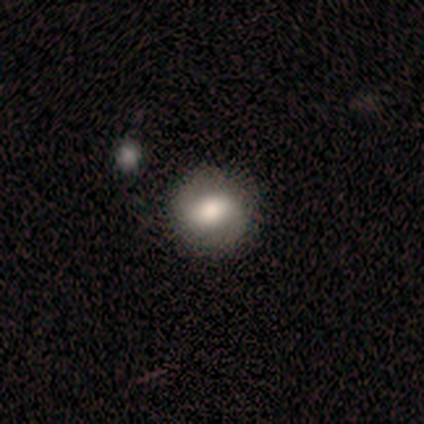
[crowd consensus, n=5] A smooth galaxy with no disk features (60%) that is round (67%).

Vote fractions:
- Smooth or featured? smooth: 60% / featured or disk: 40% / star or artifact: 0%
- How rounded? round: 67% / in between: 33% / cigar-shaped: 0%
- Merging? none: 80% / merger: 20% / minor disturbance: 0% / major disturbance: 0%